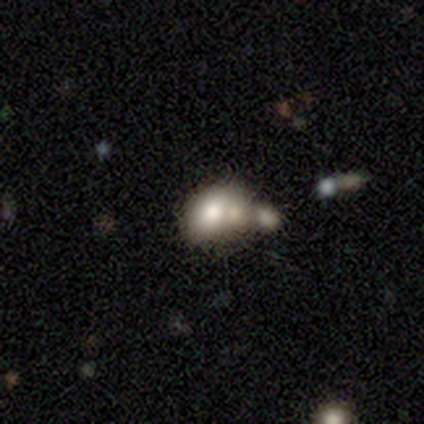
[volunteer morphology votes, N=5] This is likely a smooth galaxy (60%). How rounded: likely in between (67%). Merging: marginally minor disturbance (40%).